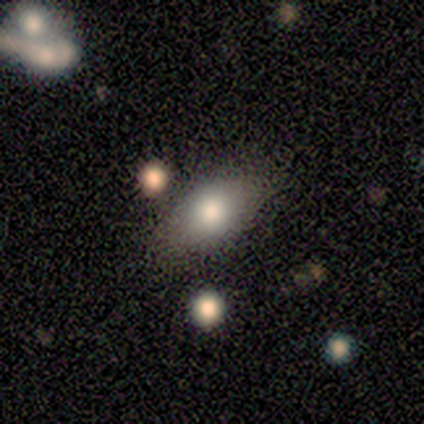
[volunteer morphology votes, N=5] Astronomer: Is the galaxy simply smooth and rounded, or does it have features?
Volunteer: smooth — 100%.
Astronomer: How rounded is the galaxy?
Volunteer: in between — 100%.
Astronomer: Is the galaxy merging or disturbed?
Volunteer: none — 80%.